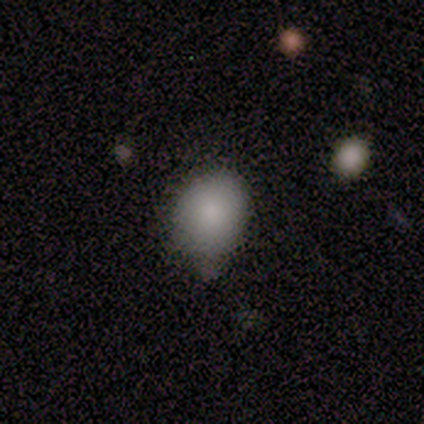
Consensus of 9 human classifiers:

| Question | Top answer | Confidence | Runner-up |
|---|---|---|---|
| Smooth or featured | smooth | 100% | — |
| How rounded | in between | 56% | round (44%) |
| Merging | none | 67% | minor disturbance (33%) |